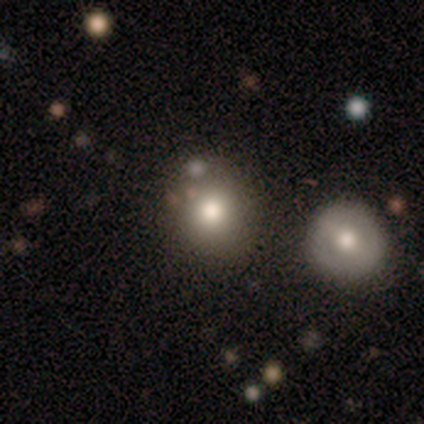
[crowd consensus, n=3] smooth 33% (tied), featured or disk 33% (tied), star or artifact 33% (tied). Down the decision tree: how rounded — round (100%); merging — none (50%, tied with merger).